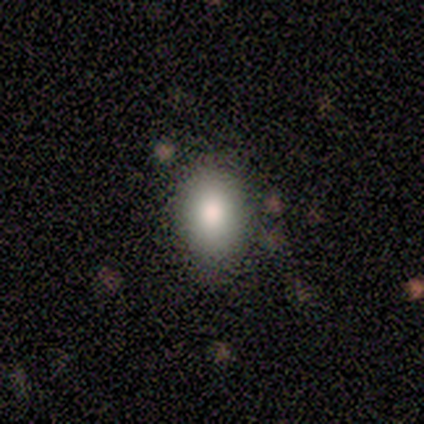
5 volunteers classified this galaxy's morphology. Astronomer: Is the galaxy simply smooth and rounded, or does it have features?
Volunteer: smooth — 80%.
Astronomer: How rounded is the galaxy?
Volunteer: in between — 100%.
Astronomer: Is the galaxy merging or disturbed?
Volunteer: none — 50%, tied with minor disturbance at 50%.